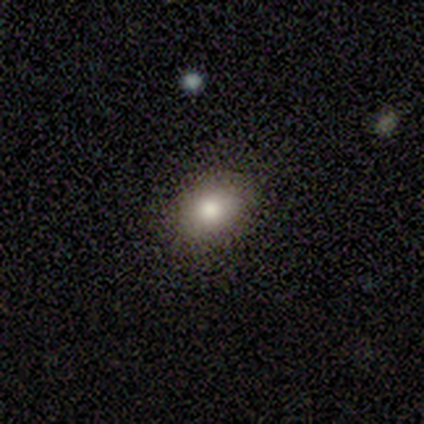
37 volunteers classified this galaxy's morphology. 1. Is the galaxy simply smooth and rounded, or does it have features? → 62% smooth, 19% featured or disk, 19% star or artifact.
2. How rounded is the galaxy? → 74% in between, 26% round, 0% cigar-shaped.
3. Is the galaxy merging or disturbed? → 93% none, 7% minor disturbance, 0% major disturbance, 0% merger.